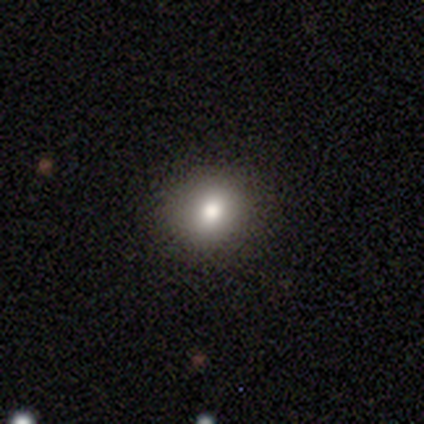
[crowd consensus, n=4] This is likely a smooth galaxy (75%). How rounded: clearly round (100%). Merging: clearly none (100%).